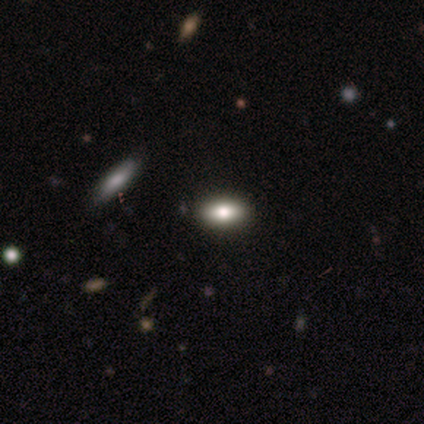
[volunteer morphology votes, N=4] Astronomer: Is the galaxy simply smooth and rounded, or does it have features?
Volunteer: smooth — 100%.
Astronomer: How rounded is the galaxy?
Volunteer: in between — 100%.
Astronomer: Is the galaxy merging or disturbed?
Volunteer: none — 75%.